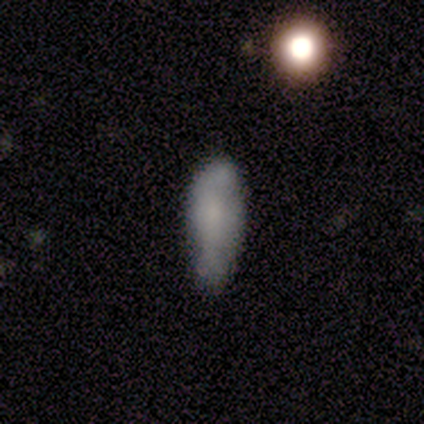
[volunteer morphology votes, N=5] smooth_or_featured: smooth (p=0.60) [alt: featured or disk p=0.40]
how_rounded: in between (p=0.67) [alt: cigar-shaped p=0.33]
merging: none (p=0.40) [tied with: minor disturbance p=0.40]